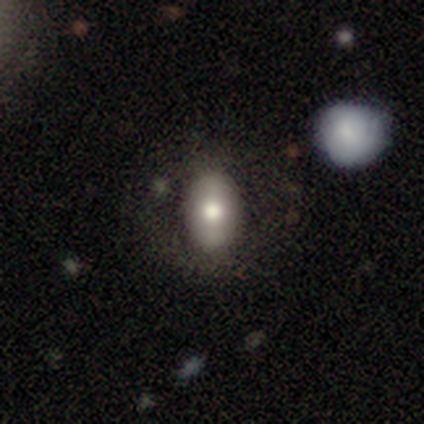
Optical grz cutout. It shows a smooth galaxy with no disk features (59%) that is in between round and cigar-shaped (96%). Merging: none (53%).